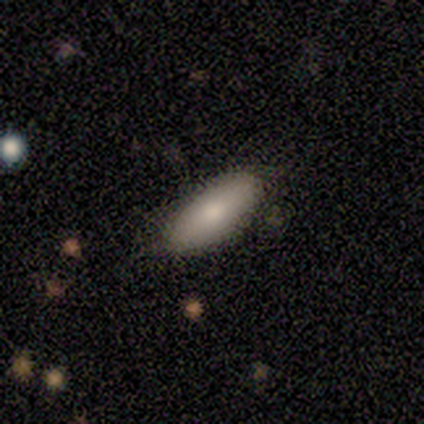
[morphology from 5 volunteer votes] smooth_or_featured: smooth (p=0.60) [alt: featured or disk p=0.40]
how_rounded: in between (p=0.67) [alt: round p=0.33]
merging: none (p=1.00)